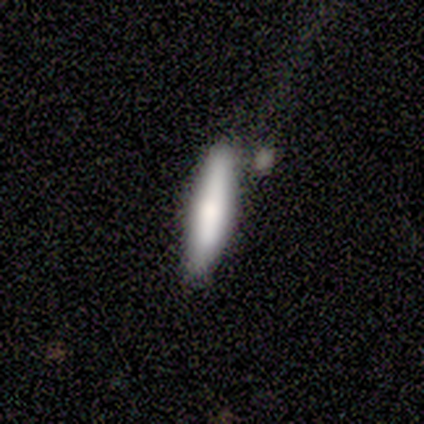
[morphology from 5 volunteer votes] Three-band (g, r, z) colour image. It shows a smooth galaxy with no disk features (100%) that is cigar-shaped (60%). Merging: none (60%).